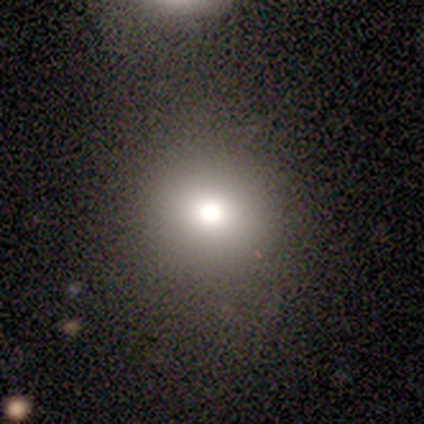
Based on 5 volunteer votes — Smooth or featured? 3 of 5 (60%) said smooth. How rounded? 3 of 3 (100%) said round. Merging? 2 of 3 (67%) said none.